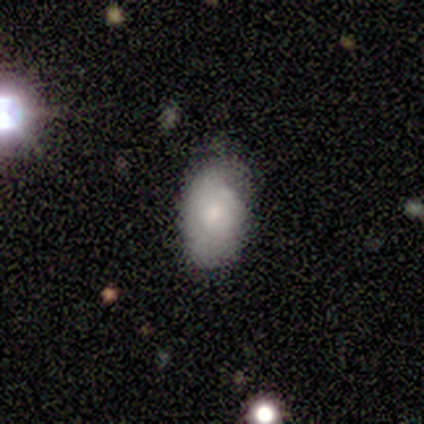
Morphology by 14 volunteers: Smooth or featured? 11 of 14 (79%) said smooth. How rounded? 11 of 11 (100%) said in between. Merging? 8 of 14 (57%) said none.